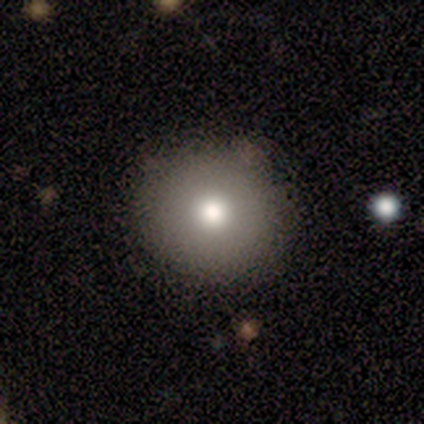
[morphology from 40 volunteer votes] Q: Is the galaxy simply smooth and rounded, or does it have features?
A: smooth — 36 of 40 (90%).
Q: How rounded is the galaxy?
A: round — 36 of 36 (100%).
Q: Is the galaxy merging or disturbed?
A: none — 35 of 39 (90%).